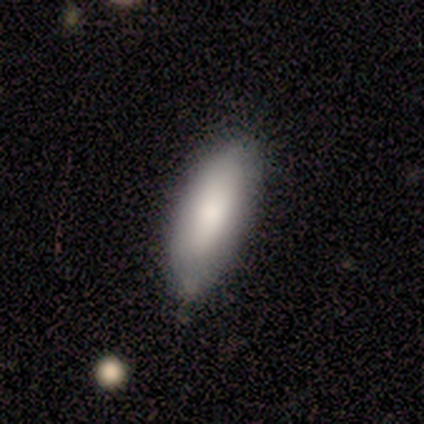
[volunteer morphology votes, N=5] type=smooth (100%); roundness=in between (80%); merging=none (100%).